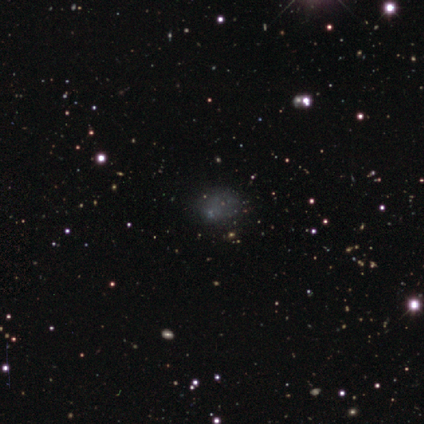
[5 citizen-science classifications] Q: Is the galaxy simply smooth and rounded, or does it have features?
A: featured or disk — 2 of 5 (40%, tied with star or artifact).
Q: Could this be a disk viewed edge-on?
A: no — 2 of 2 (100%).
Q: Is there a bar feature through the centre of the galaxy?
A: no — 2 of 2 (100%).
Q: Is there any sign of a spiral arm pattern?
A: no — 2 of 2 (100%).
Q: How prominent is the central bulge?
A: small — 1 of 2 (50%, tied with none).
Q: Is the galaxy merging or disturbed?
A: major disturbance — 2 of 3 (67%).